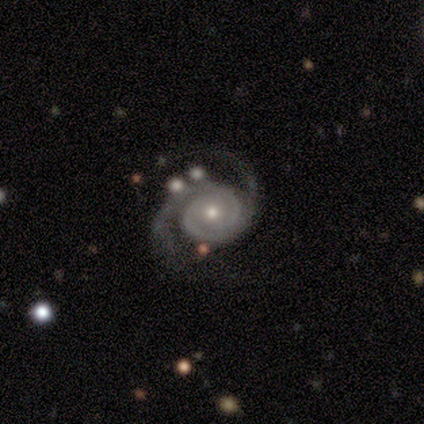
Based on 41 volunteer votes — A featured or disk galaxy (98%) with no bar (75%), 2 (98%) medium (45%) spiral arms (100%) and a moderate central bulge (55%). Merging: none (63%).